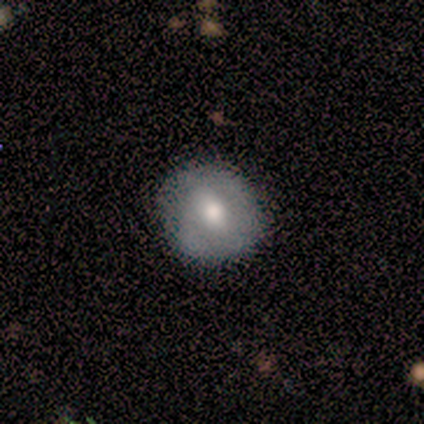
Consensus on every question: smooth or featured — smooth (100%); how rounded — round (100%); merging — none (100%).